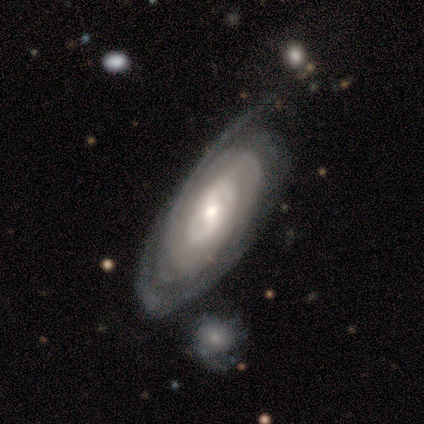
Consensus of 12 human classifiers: Morphology: type=featured or disk (75%); edge-on=no (89%); bar=no (88%); spiral arms=yes (75%); winding=tight (100%); arm count=can't tell (50%); bulge=moderate (50%, tied with small); merging=none (75%).